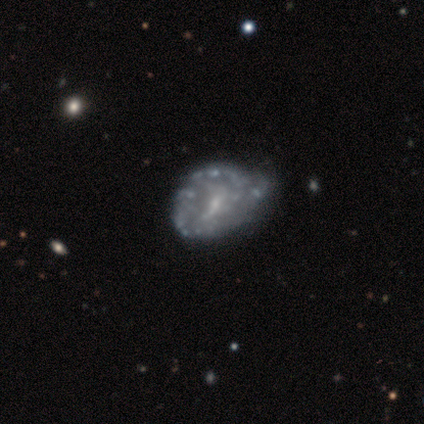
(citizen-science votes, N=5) smooth-or-featured: featured or disk: 100% | smooth: 0% | star or artifact: 0%
  disk-edge-on: no: 100% | yes: 0%
    bar: no: 80% | weak: 20% | strong: 0%
    has-spiral-arms: no: 100% | yes: 0%
    bulge-size: moderate: 40% (tied) | small: 40% (tied) | dominant: 20% | large: 0% | none: 0%
  merging: none: 40% (tied) | minor disturbance: 40% (tied) | merger: 20% | major disturbance: 0%